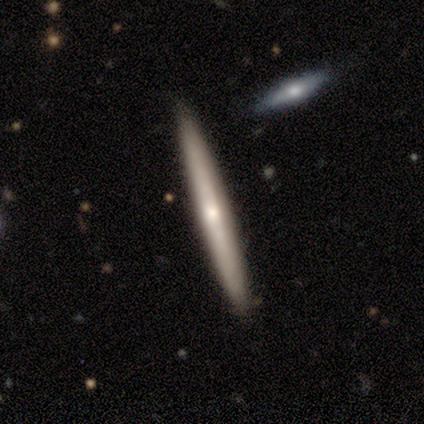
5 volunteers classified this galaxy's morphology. smooth_or_featured: featured or disk (p=0.60) [alt: smooth p=0.40]
disk_edge_on: yes (p=1.00)
edge_on_bulge: rounded (p=1.00)
merging: none (p=0.80) [alt: merger p=0.20]